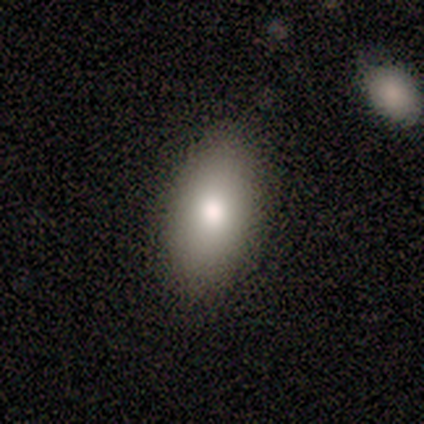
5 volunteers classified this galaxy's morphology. This appears to be a smooth galaxy with no disk features (80%) that is in between round and cigar-shaped (100%). Merging: none (100%).